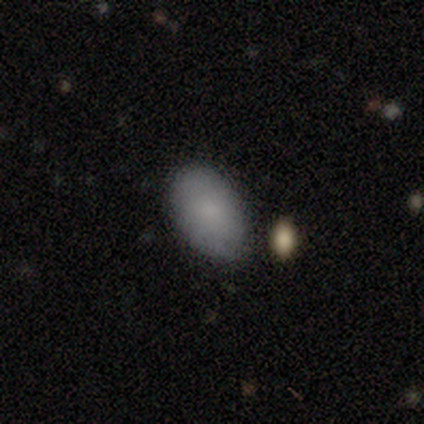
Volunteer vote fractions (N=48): Volunteers were most divided on "merging": none: 80%, minor disturbance: 20%, major disturbance: 0%, merger: 0%. More confident: how rounded — in between (97%); smooth or featured — smooth (81%).